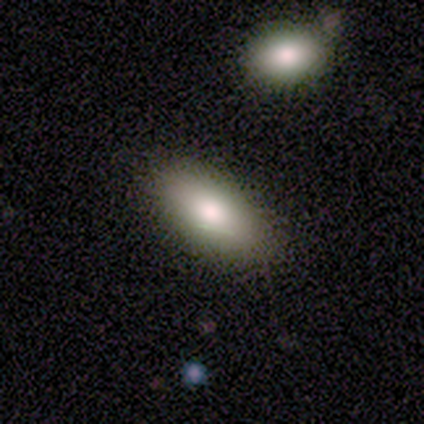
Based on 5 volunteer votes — Morphology: type=smooth (60%); roundness=in between (100%); merging=none (100%).